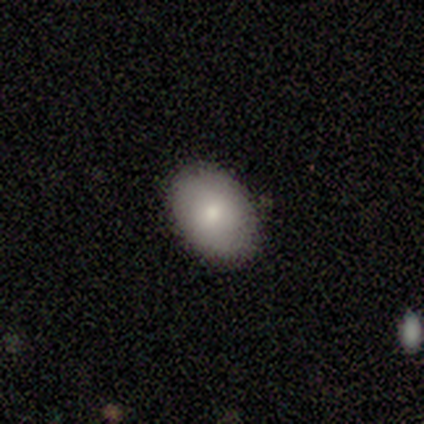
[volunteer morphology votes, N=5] Smooth or featured: smooth — 80% (featured or disk — 20%)
How rounded: in between — 100%
Merging: none — 80% (minor disturbance — 20%)